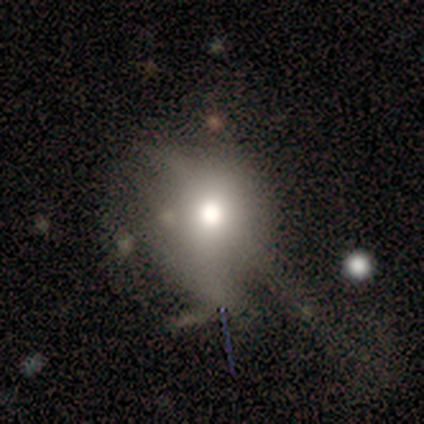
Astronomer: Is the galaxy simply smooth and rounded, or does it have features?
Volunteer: smooth — 60%.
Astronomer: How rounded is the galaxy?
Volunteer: round — 67%.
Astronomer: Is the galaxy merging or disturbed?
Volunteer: major disturbance — 50%.